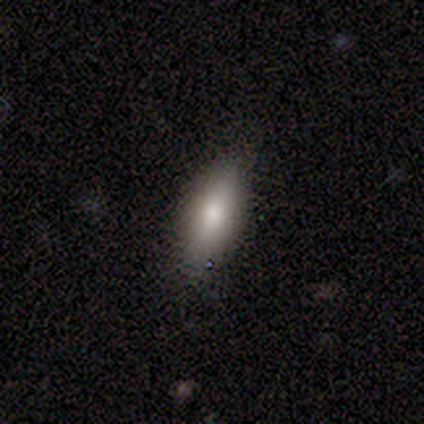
Morphology: type=smooth (67%); roundness=in between (100%); merging=none (100%).